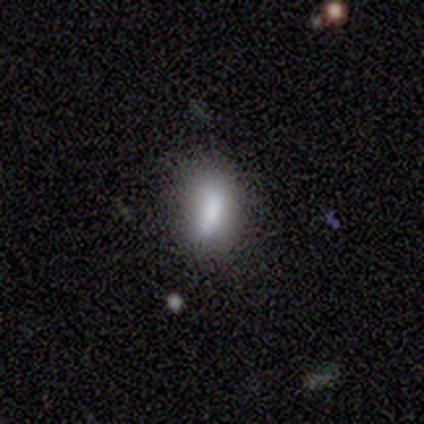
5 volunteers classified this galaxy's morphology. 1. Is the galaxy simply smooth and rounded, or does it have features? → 60% smooth, 20% featured or disk, 20% star or artifact.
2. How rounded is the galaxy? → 67% in between, 33% cigar-shaped, 0% round.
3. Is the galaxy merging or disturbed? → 50% none (tied), 50% minor disturbance (tied), 0% major disturbance, 0% merger.